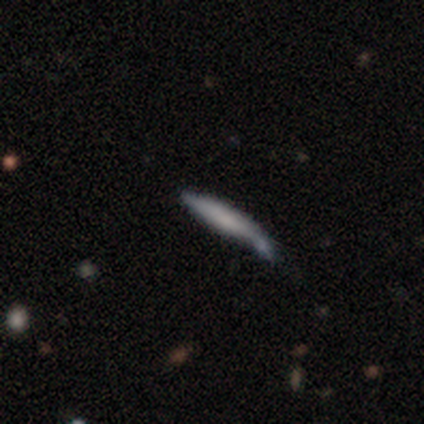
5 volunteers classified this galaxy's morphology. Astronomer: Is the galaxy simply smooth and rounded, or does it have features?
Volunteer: smooth — 60% (runner-up: featured or disk, 40%).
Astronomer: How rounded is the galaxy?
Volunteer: cigar-shaped — 100%.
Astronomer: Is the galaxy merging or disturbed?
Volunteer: minor disturbance — 40%, tied with merger at 40%.